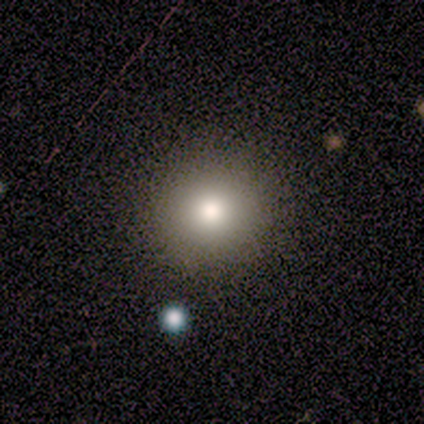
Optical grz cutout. It shows a smooth galaxy with no disk features (60%) that is round (100%). Merging: none (100%).